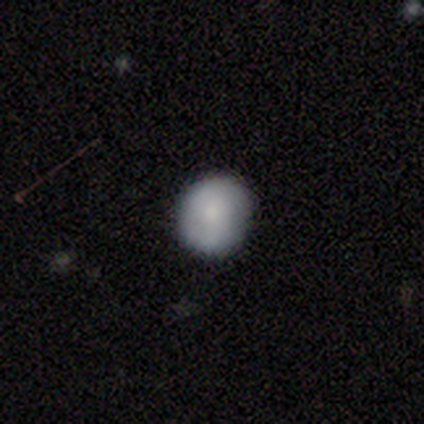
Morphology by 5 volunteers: Q: Smooth or featured?
A: smooth (80%); runner-up: featured or disk (20%)
Q: How rounded?
A: round (75%); runner-up: in between (25%)
Q: Merging?
A: none (100%)